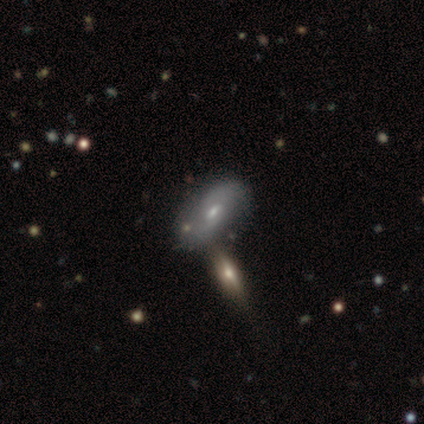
This appears to be a featured or disk galaxy (60%) with a weak bar (100%), 2 (67%) medium (67%) spiral arms (100%) and a moderate central bulge (67%). Merging: none (67%).